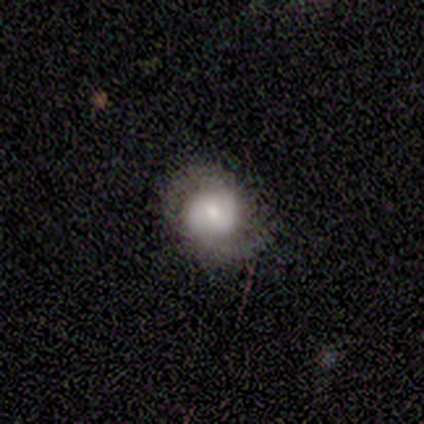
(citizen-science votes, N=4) Q: Smooth or featured?
A: featured or disk (100%)
Q: Edge-on disk?
A: no (100%)
Q: Bar?
A: weak (50%); tied with: no (50%)
Q: Spiral arms?
A: yes (100%)
Q: Spiral winding?
A: tight (75%); runner-up: medium (25%)
Q: Spiral arm count?
A: 2 (100%)
Q: Bulge size?
A: moderate (75%); runner-up: small (25%)
Q: Merging?
A: none (100%)